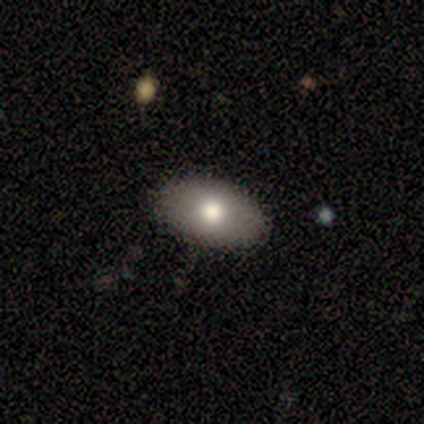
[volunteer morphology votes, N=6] This is clearly a smooth galaxy (100%). How rounded: clearly in between (100%). Merging: clearly none (83%).